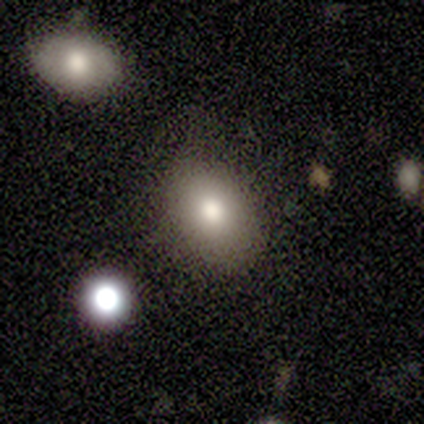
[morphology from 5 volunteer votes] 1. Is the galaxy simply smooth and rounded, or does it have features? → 60% featured or disk, 40% smooth, 0% star or artifact.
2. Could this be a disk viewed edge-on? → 100% no, 0% yes.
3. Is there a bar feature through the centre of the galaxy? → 100% no, 0% strong, 0% weak.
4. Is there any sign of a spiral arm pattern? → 100% no, 0% yes.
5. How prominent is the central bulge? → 67% moderate, 33% large, 0% dominant, 0% small, 0% none.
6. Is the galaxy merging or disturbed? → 80% none, 20% minor disturbance, 0% major disturbance, 0% merger.